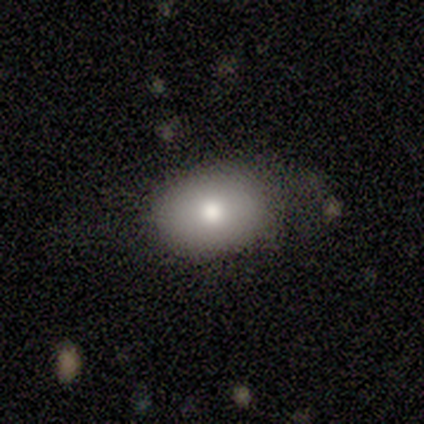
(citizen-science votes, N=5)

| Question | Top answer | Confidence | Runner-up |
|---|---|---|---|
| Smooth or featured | smooth | 80% | featured or disk (20%) |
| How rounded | in between | 100% | — |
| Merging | none | 60% | minor disturbance (40%) |